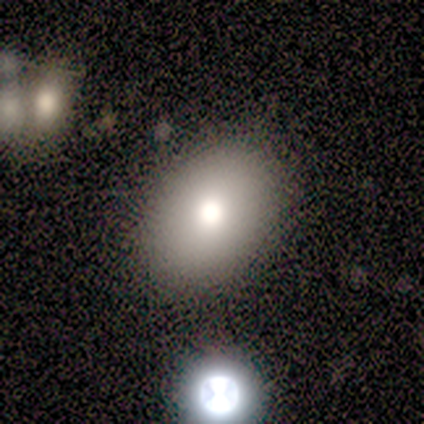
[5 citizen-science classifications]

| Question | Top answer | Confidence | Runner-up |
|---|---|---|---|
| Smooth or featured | smooth | 80% | featured or disk (20%) |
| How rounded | in between | 100% | — |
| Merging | none | 100% | — |